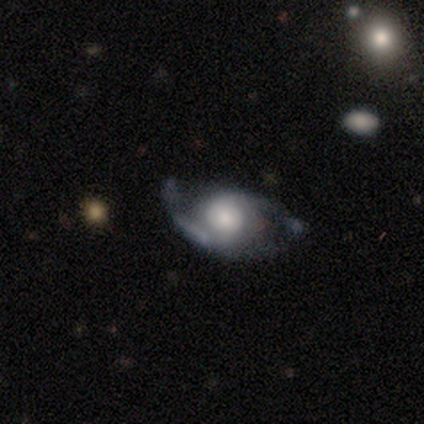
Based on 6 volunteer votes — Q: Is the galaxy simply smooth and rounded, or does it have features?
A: featured or disk — 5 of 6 (83%).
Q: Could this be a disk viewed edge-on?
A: no — 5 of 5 (100%).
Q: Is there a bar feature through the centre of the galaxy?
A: no — 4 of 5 (80%).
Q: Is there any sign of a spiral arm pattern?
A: yes — 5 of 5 (100%).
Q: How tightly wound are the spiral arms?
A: medium — 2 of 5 (40%, tied with loose).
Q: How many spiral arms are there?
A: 2 — 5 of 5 (100%).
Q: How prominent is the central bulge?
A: moderate — 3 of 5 (60%).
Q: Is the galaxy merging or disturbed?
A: none — 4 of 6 (67%).